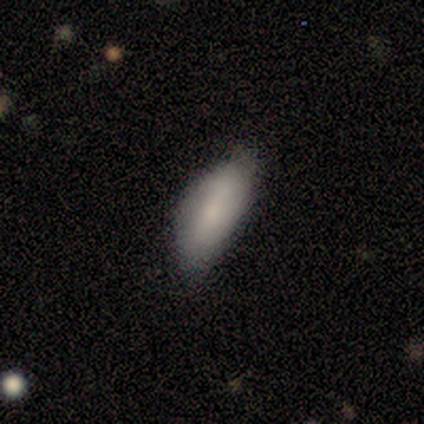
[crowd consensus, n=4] Volunteers were most divided on "merging" (2-way tie): none: 50%, minor disturbance: 50%, major disturbance: 0%, merger: 0%. More confident: how rounded — in between (100%); smooth or featured — smooth (75%).